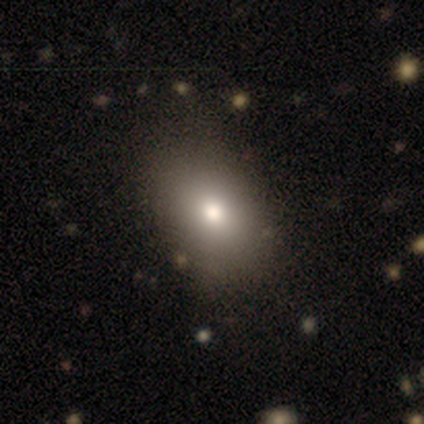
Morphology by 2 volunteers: type=smooth (50%, tied with star or artifact); roundness=in between (100%); merging=major disturbance (100%).